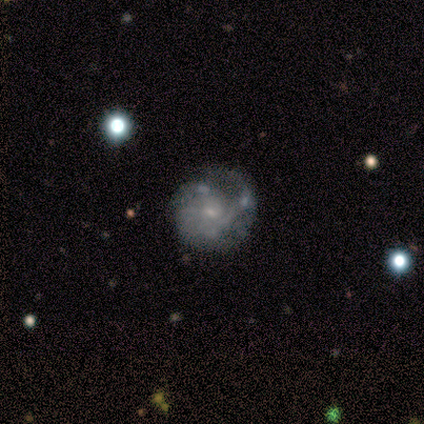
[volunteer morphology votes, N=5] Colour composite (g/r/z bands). It shows a featured or disk galaxy (60%) with no bar (100%), 1 (50%, tied with 4) medium (100%) spiral arms (67%) and a small central bulge (100%). Merging: none (100%).